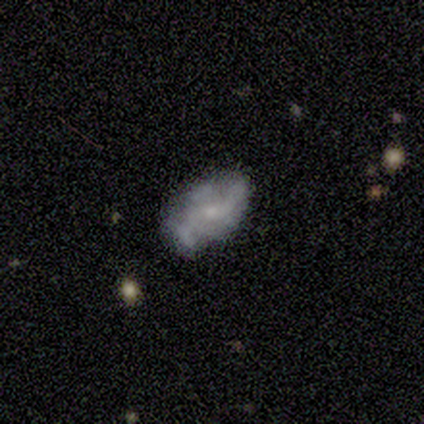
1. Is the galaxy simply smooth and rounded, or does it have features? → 80% smooth, 20% featured or disk, 0% star or artifact.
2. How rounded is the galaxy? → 75% in between, 25% cigar-shaped, 0% round.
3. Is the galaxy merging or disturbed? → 60% none, 40% minor disturbance, 0% major disturbance, 0% merger.